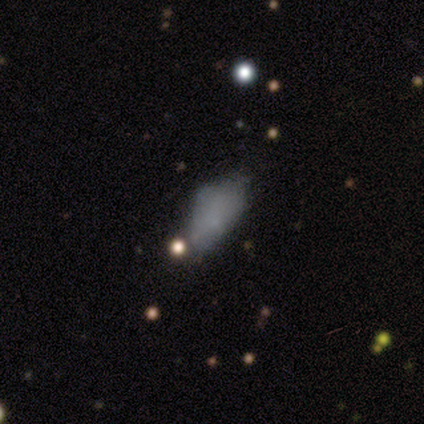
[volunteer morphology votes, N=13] type=smooth (69%); roundness=in between (78%); merging=major disturbance (42%).